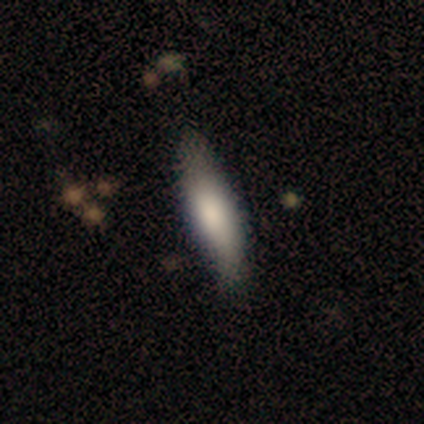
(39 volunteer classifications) Smooth or featured? 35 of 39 (90%) said smooth. How rounded? 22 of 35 (63%) said cigar-shaped. Merging? 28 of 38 (74%) said none.